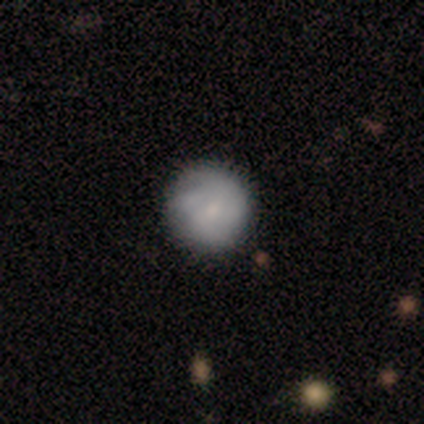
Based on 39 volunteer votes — Smooth or featured? smooth (64%)
How rounded? round (100%)
Merging? none (69%)